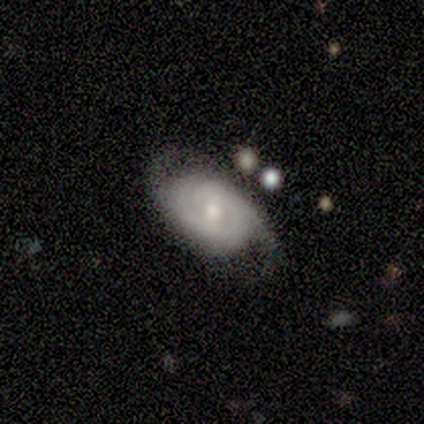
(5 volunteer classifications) featured or disk 60%, smooth 40%, star or artifact 0%. Down the decision tree: edge-on disk — no (100%); bar — no (100%); spiral arms — yes (100%); spiral arm count — can't tell (67%); spiral winding — tight (100%); bulge size — small (100%); merging — none (100%).